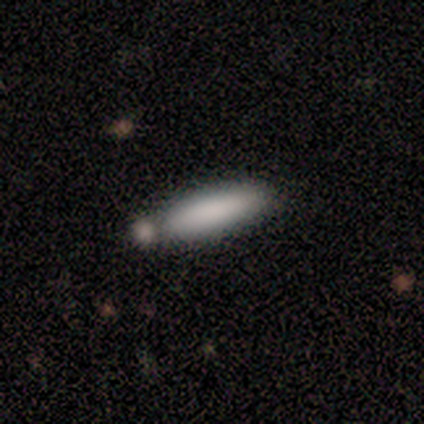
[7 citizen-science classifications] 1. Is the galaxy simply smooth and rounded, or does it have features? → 100% smooth, 0% featured or disk, 0% star or artifact.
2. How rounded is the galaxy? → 71% cigar-shaped, 29% in between, 0% round.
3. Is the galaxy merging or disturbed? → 57% none, 43% minor disturbance, 0% major disturbance, 0% merger.